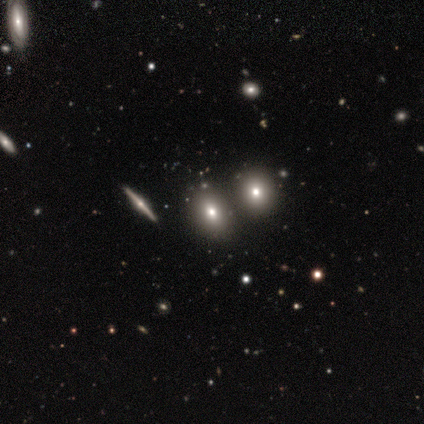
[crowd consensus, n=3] Overall: smooth (67%; featured or disk 33%). How rounded: in between (100%). Merging: none (67%; minor disturbance 33%).